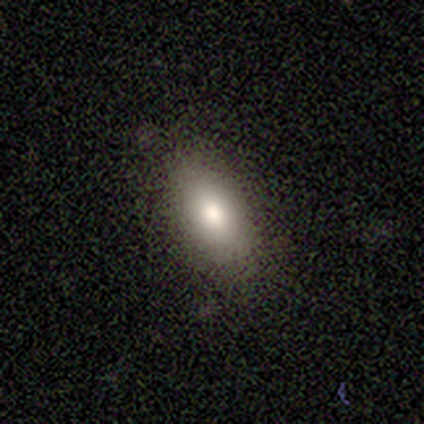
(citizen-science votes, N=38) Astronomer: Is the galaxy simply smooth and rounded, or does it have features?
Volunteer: smooth — 76%.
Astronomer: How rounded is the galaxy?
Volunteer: in between — 83%.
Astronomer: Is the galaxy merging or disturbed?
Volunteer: none — 82%.